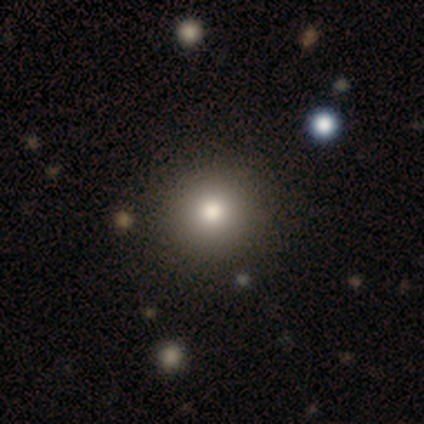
Q: Smooth or featured?
A: smooth (100%)
Q: How rounded?
A: round (100%)
Q: Merging?
A: none (100%)